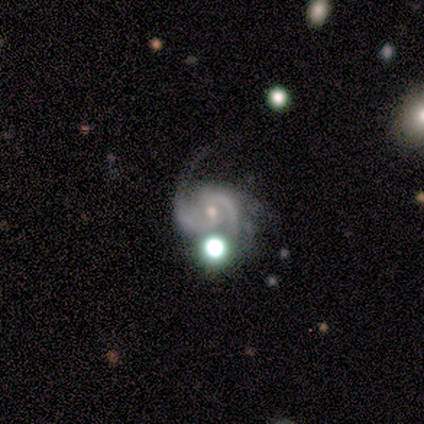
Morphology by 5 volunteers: Smooth or featured?
  - featured or disk: 100% *
  - smooth: 0%
  - star or artifact: 0%
Edge-on disk?
  - no: 100% *
  - yes: 0%
Bar?
  - weak: 60% *
  - strong: 20%
  - no: 20%
Spiral arms?
  - yes: 100% *
  - no: 0%
Spiral winding?
  - tight: 40% * (tied)
  - medium: 40% * (tied)
  - loose: 20%
Spiral arm count?
  - 2: 100% *
  - 1: 0%
  - 3: 0%
  - 4: 0%
  - more than 4: 0%
  - can't tell: 0%
Bulge size?
  - moderate: 60% *
  - small: 40%
  - dominant: 0%
  - large: 0%
  - none: 0%
Merging?
  - none: 40% * (tied)
  - minor disturbance: 40% * (tied)
  - major disturbance: 20%
  - merger: 0%